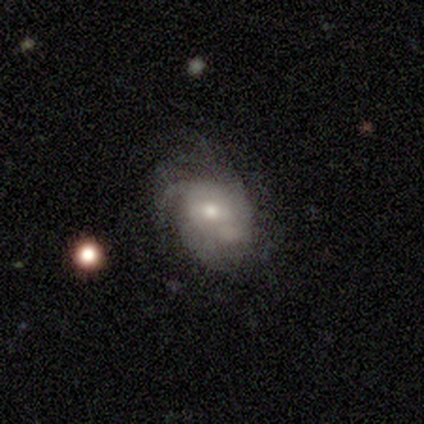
Smooth or featured: smooth — 67% (featured or disk — 33%)
How rounded: round — 50% (tied with in between — 50%)
Merging: none — 33% (tied with minor disturbance — 33%; major disturbance — 33%)